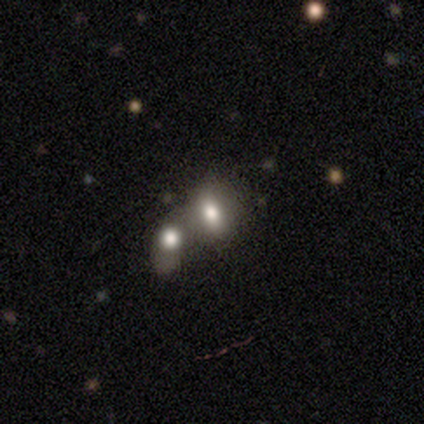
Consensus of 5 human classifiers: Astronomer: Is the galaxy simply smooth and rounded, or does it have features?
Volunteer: smooth — 80%.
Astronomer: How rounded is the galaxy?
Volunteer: in between — 100%.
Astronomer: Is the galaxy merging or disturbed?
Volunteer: merger — 50%.